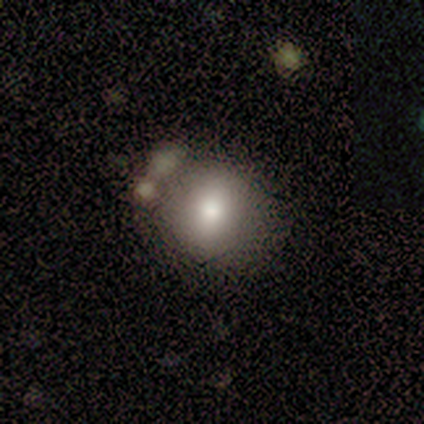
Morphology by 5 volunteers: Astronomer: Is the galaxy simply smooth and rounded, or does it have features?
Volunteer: smooth — 100%.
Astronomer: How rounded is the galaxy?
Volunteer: round — 80%.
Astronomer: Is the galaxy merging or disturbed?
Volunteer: none — 40%, tied with merger at 40%.